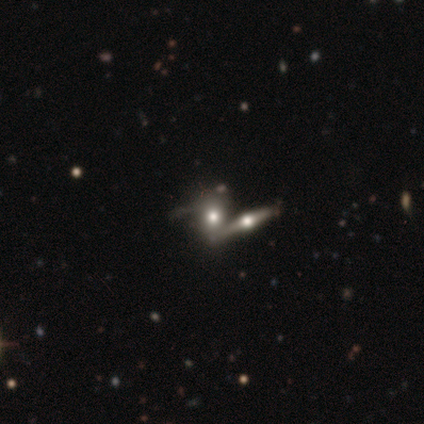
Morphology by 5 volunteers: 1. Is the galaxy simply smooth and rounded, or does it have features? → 60% smooth, 20% featured or disk, 20% star or artifact.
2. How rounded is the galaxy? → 67% in between, 33% cigar-shaped, 0% round.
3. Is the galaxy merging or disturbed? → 75% merger, 25% major disturbance, 0% none, 0% minor disturbance.